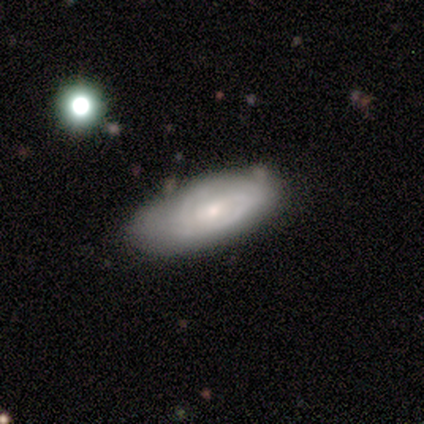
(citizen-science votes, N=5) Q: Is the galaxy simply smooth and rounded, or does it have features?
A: featured or disk — 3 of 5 (60%).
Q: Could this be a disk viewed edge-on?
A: no — 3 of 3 (100%).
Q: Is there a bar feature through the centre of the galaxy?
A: weak — 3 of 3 (100%).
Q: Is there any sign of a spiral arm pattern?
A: yes — 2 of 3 (67%).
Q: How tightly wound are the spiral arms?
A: medium — 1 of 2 (50%, tied with loose).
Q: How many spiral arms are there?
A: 2 — 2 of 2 (100%).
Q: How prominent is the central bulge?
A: small — 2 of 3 (67%).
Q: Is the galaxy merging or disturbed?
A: none — 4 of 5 (80%).